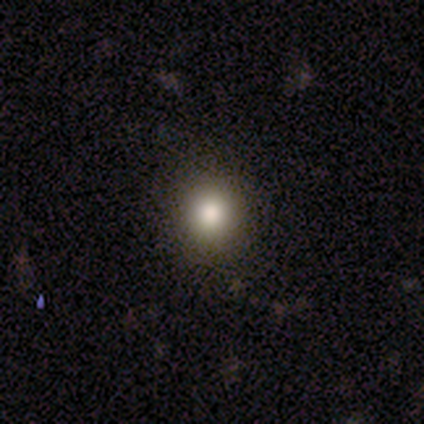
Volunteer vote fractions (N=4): A smooth galaxy with no disk features (75%) that is round (100%).

Vote fractions:
- Smooth or featured? smooth: 75% / featured or disk: 25% / star or artifact: 0%
- How rounded? round: 100% / in between: 0% / cigar-shaped: 0%
- Merging? none: 100% / minor disturbance: 0% / major disturbance: 0% / merger: 0%